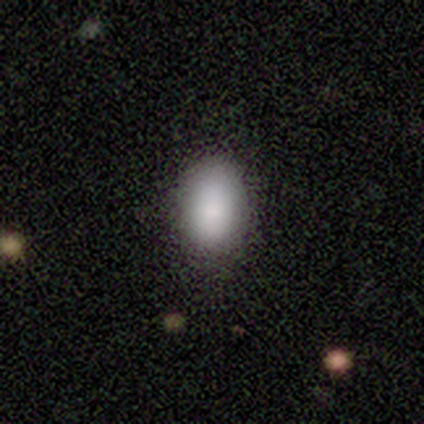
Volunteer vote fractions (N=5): Morphology: type=smooth (100%); roundness=in between (80%); merging=none (80%).